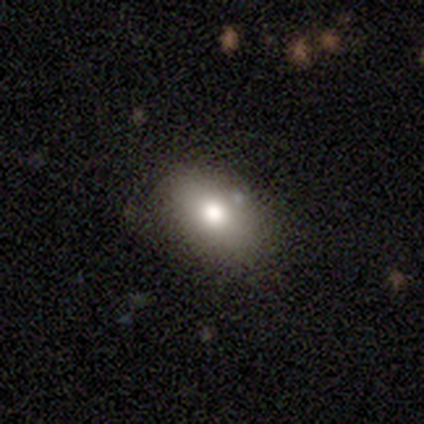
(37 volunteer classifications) smooth 68%, star or artifact 19%, featured or disk 14%. Down the decision tree: how rounded — in between (96%); merging — none (90%).